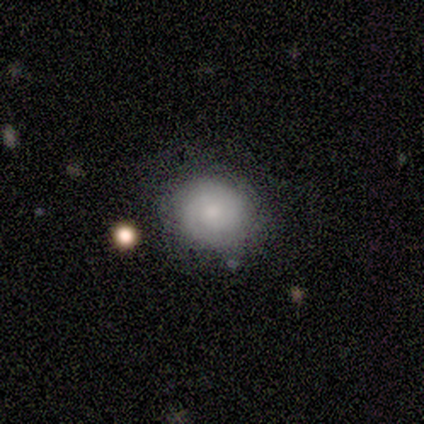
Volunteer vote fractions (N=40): Overall: smooth (65%). How rounded: round (73%). Merging: none (71%).